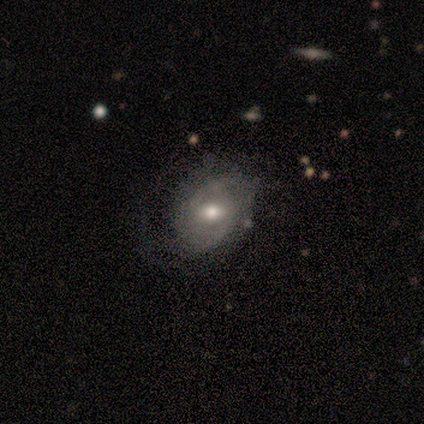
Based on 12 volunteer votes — Smooth or featured: featured or disk — 58% (smooth — 33%)
Edge-on disk: no — 100%
Bar: no — 71% (weak — 29%)
Spiral arms: yes — 71% (no — 29%)
Spiral winding: medium — 80% (loose — 20%)
Spiral arm count: 2 — 40% (tied with can't tell — 40%)
Bulge size: moderate — 100%
Merging: minor disturbance — 55% (none — 36%)